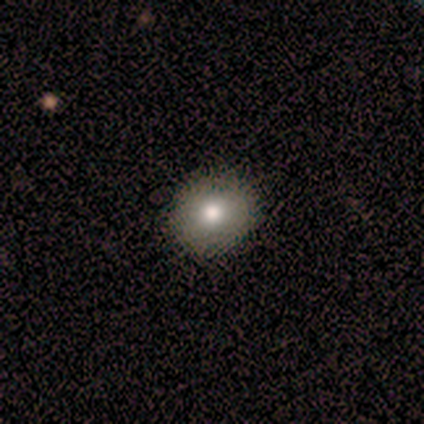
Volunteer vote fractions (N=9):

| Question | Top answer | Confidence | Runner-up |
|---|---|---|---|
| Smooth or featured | smooth | 100% | — |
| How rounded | round | 89% | in between (11%) |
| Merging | none | 100% | — |